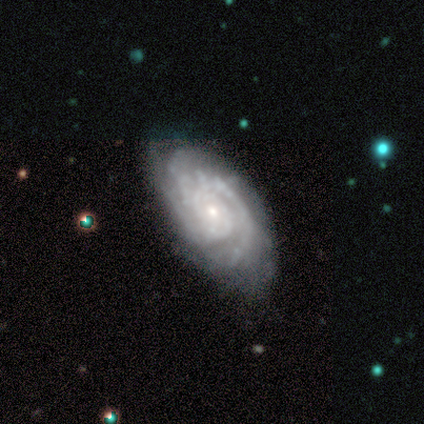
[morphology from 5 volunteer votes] A featured or disk galaxy (100%) with no bar (80%), 3 (60%) tight (60%) spiral arms (100%) and a small central bulge (80%). Merging: none (60%).